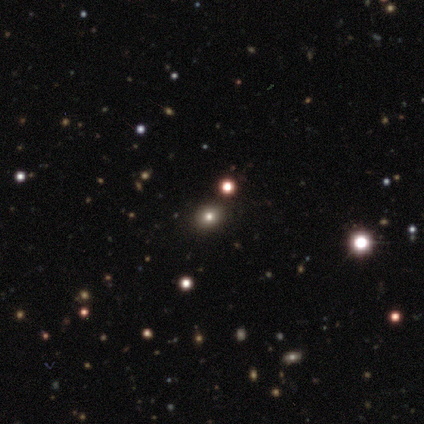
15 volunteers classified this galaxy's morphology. A smooth galaxy with no disk features (67%) that is round (70%).

Vote fractions:
- Smooth or featured? smooth: 67% / star or artifact: 27% / featured or disk: 7%
- How rounded? round: 70% / in between: 30% / cigar-shaped: 0%
- Merging? none: 82% / minor disturbance: 18% / major disturbance: 0% / merger: 0%